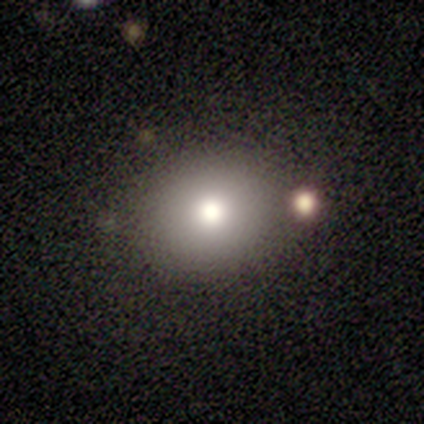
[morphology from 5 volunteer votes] Smooth or featured? smooth (60%)
How rounded? round (67%)
Merging? none (100%)